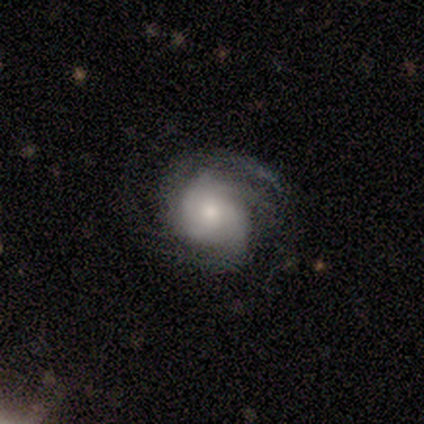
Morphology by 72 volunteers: Volunteers were most divided on "spiral arm count": 2: 33%, 3: 24%, can't tell: 24%, 4: 12%, 1: 8%, more than 4: 0%. More confident: edge-on disk — no (96%); spiral arms — yes (96%); bar — no (81%); smooth or featured — featured or disk (76%); merging — none (57%); spiral winding — medium (55%); bulge size — moderate (51%).